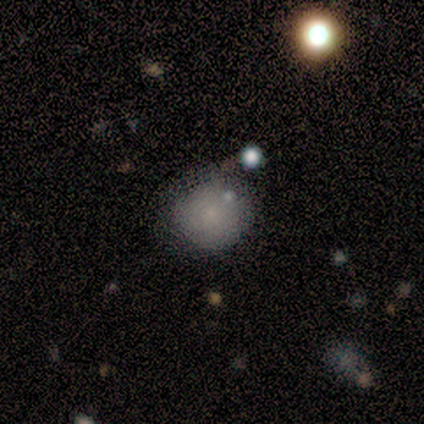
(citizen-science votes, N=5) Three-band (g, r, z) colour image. It shows a smooth galaxy with no disk features (60%) that is round (100%). Merging: none (60%).